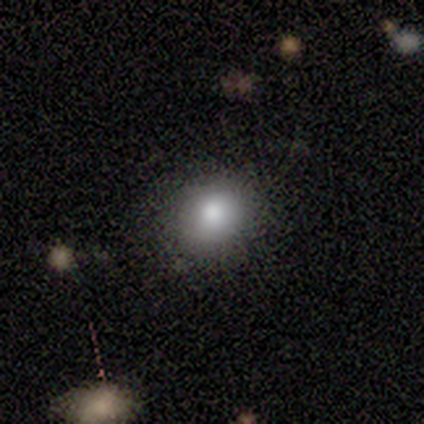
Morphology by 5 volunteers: smooth 100%, featured or disk 0%, star or artifact 0%. Down the decision tree: how rounded — round (60%); merging — none (80%).